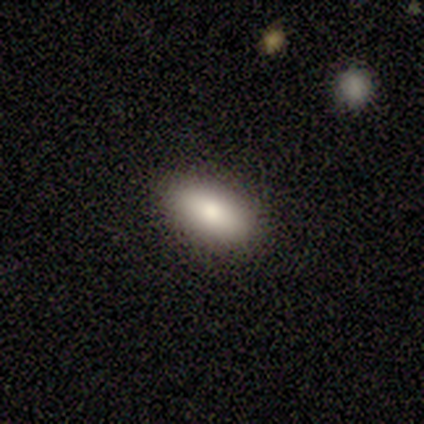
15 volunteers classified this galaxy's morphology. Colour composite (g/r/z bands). It shows a smooth galaxy with no disk features (93%) that is in between round and cigar-shaped (79%). Merging: none (87%).